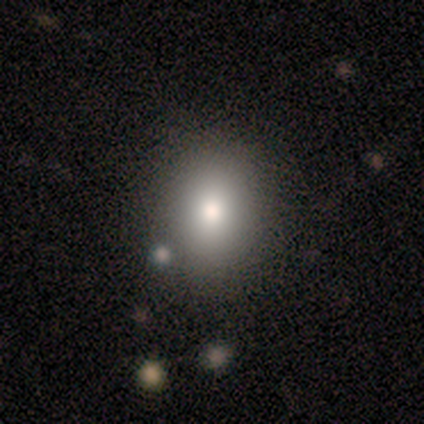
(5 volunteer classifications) Morphology: type=smooth (80%); roundness=round (50%, tied with in between); merging=none (75%).